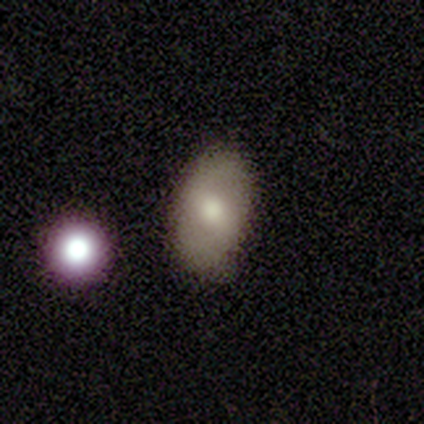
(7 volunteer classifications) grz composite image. It shows a featured or disk galaxy (57%) with a strong bar (50%), 2 (100%) loose (67%) spiral arms (75%) and a moderate central bulge (75%). Merging: none (100%).